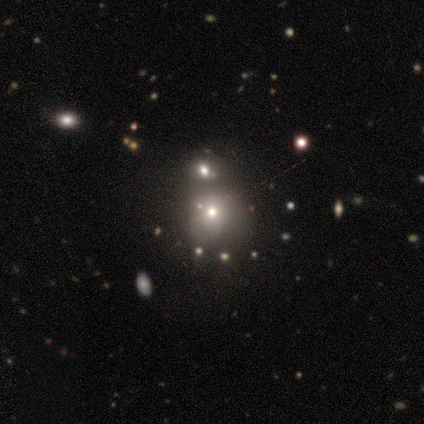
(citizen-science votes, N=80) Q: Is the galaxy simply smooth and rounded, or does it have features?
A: smooth — 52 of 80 (65%).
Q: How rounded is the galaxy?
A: round — 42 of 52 (81%).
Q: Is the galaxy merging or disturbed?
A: merger — 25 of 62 (40%).